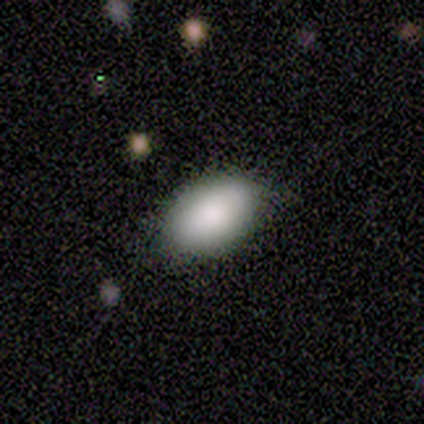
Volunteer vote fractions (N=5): This is clearly a smooth galaxy (80%). How rounded: clearly in between (100%). Merging: clearly none (100%).